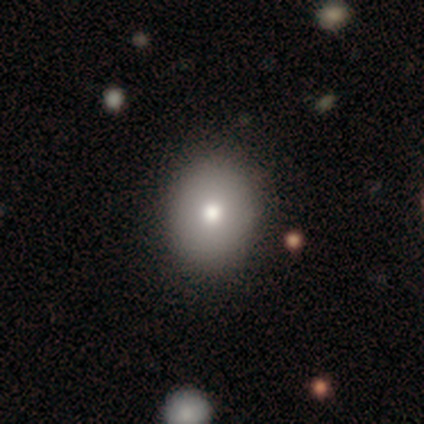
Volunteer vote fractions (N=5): Smooth or featured? 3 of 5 (60%) said smooth. How rounded? 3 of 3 (100%) said in between. Merging? 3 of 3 (100%) said none.